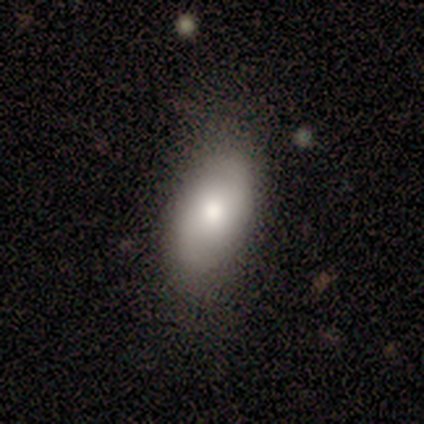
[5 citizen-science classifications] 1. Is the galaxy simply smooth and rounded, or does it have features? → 40% smooth (tied), 40% star or artifact (tied), 20% featured or disk.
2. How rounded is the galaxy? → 100% in between, 0% round, 0% cigar-shaped.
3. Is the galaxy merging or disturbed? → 100% none, 0% minor disturbance, 0% major disturbance, 0% merger.